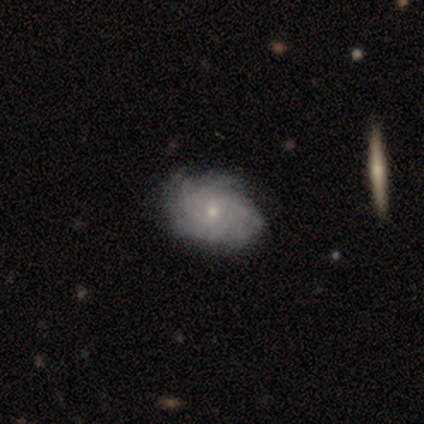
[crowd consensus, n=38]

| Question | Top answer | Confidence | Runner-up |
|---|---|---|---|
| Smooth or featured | featured or disk | 87% | smooth (13%) |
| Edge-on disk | no | 100% | — |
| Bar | no | 70% | weak (27%) |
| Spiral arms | yes | 97% | no (3%) |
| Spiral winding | tight | 78% | loose (12%) |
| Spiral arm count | can't tell | 41% | 4 (28%) |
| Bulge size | small | 61% | moderate (36%) |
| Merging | none | 58% | minor disturbance (8%) |